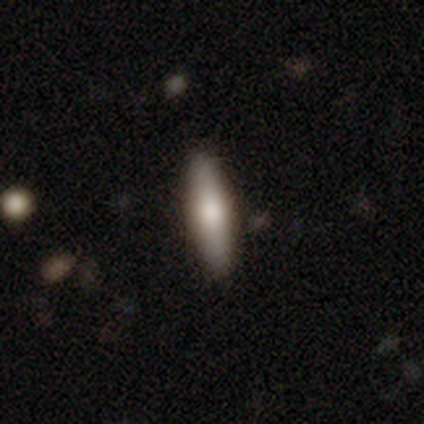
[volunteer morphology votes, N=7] type=smooth (86%); roundness=in between (67%); merging=none (86%).